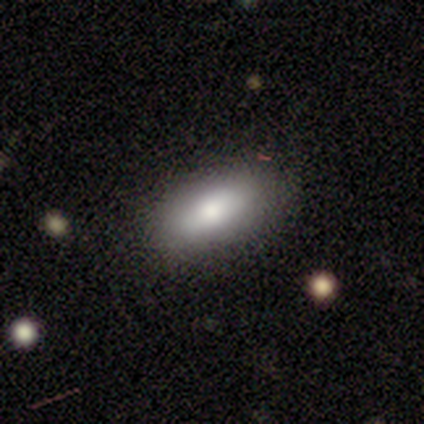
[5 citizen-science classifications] This is clearly a smooth galaxy (80%). How rounded: clearly in between (100%). Merging: clearly none (80%).